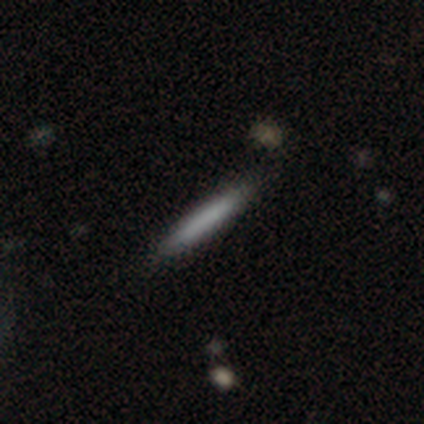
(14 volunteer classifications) smooth_or_featured: smooth (p=0.86) [alt: featured or disk p=0.14]
how_rounded: cigar-shaped (p=1.00)
merging: none (p=0.86) [alt: minor disturbance p=0.07]